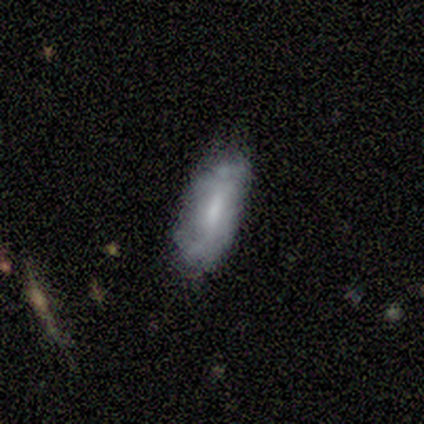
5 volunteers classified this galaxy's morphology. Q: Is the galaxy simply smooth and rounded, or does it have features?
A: smooth — 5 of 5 (100%).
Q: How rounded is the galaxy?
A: in between — 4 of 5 (80%).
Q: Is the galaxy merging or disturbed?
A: minor disturbance — 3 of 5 (60%).